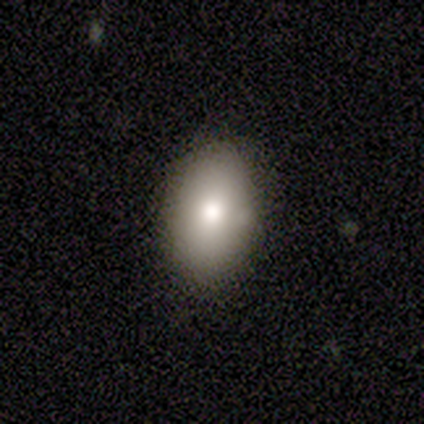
Morphology: type=smooth (100%); roundness=in between (100%); merging=none (100%).